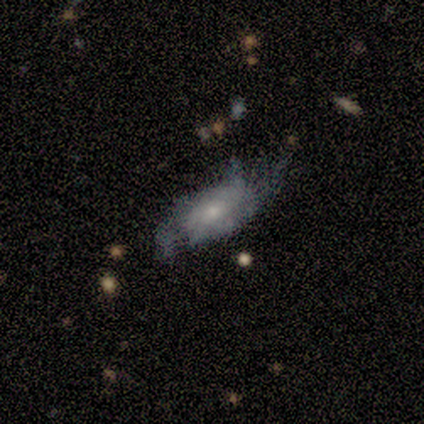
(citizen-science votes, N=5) Overall: featured or disk (100%). Edge-on disk: no (100%). Bar: no (60%; weak 40%). Spiral arms: yes (80%). Spiral arm count: 2 (50%, tied with 3). Spiral winding: loose (50%; tight 25%). Bulge size: small (80%). Merging: minor disturbance (60%; major disturbance 40%).